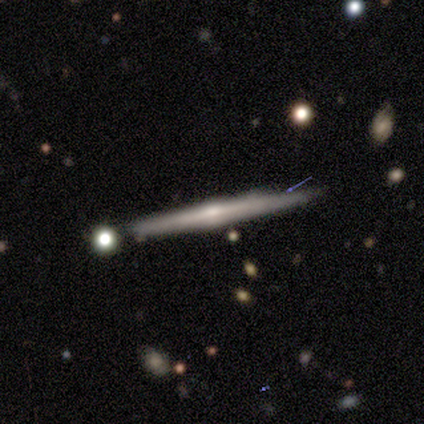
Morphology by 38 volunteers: type=featured or disk (71%); edge-on=yes (100%); edge-on bulge=rounded (74%); merging=none (86%).